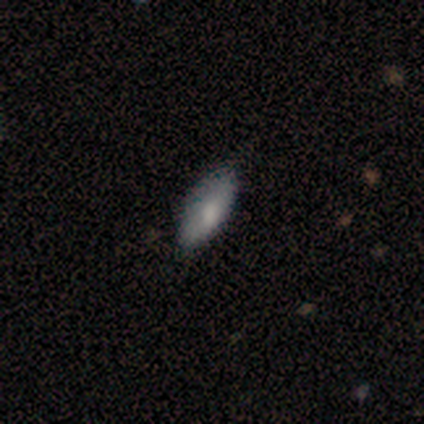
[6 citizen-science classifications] This appears to be a smooth galaxy with no disk features (67%) that is in between round and cigar-shaped (75%). Merging: none (67%).